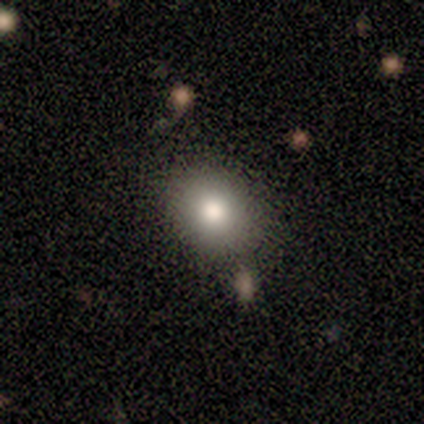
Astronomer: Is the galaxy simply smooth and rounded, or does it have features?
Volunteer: smooth — 75%.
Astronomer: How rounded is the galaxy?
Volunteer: in between — 67%.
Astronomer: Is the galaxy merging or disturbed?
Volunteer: none — 50%, tied with minor disturbance at 50%.